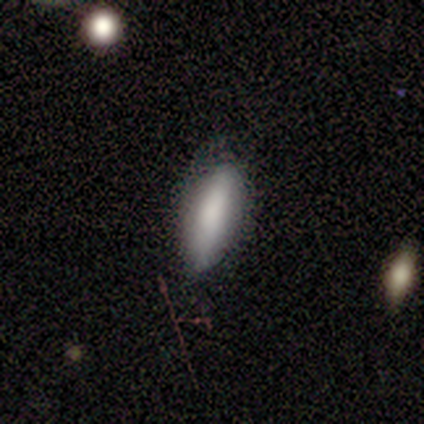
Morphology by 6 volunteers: Smooth or featured?
  - smooth: 83% *
  - featured or disk: 17%
  - star or artifact: 0%
How rounded?
  - in between: 60% *
  - cigar-shaped: 40%
  - round: 0%
Merging?
  - none: 67% *
  - minor disturbance: 33%
  - major disturbance: 0%
  - merger: 0%